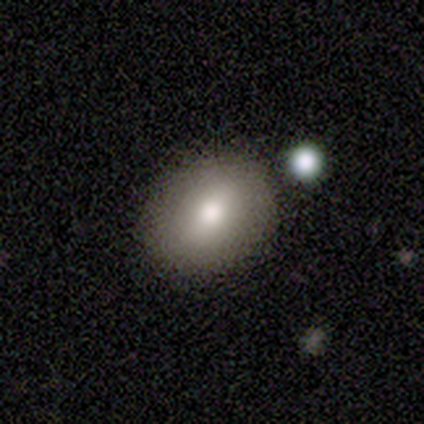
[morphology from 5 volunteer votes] Smooth or featured? 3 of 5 (60%) said featured or disk. Edge-on disk? 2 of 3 (67%) said no. Bar? 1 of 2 (50%, tied with weak) said strong. Spiral arms? 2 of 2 (100%) said no. Bulge size? 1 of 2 (50%, tied with small) said large. Merging? 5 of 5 (100%) said none.